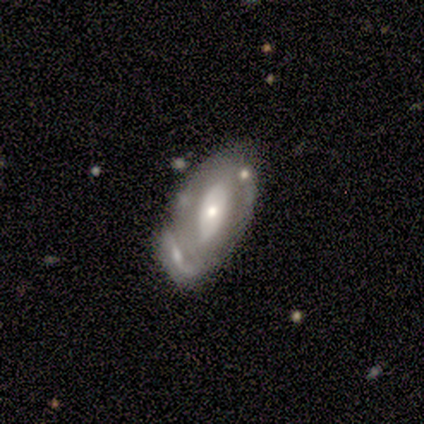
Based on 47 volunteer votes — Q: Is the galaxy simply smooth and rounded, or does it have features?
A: featured or disk — 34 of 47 (72%).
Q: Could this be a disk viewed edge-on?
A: no — 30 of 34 (88%).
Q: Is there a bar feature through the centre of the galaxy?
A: no — 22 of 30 (73%).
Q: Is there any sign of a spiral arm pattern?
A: no — 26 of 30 (87%).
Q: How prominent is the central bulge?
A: moderate — 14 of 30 (47%).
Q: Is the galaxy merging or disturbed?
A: none — 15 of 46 (33%).